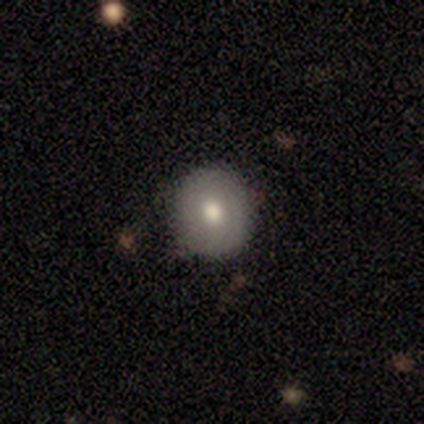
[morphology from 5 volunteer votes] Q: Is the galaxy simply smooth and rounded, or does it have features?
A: smooth — 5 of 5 (100%).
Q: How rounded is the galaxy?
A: round — 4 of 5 (80%).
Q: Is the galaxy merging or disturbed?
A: none — 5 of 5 (100%).